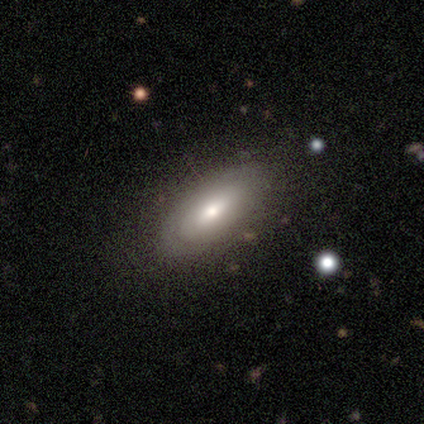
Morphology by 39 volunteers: type=smooth (51%); roundness=in between (90%); merging=none (92%).